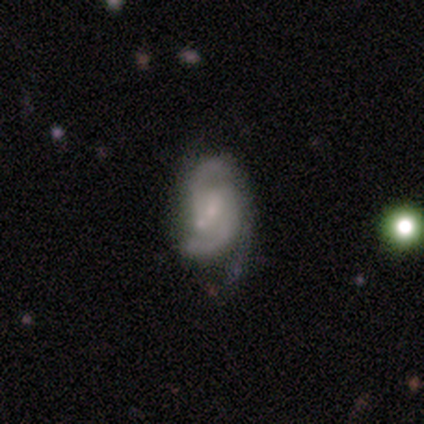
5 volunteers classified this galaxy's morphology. This appears to be a featured or disk galaxy (100%) with a weak bar (80%), 2 (100%) medium (60%) spiral arms (100%) and a small central bulge (60%). Merging: minor disturbance (60%).